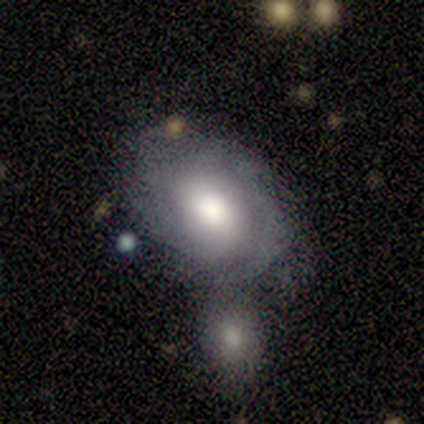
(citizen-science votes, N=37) smooth_or_featured: featured or disk (p=0.59) [alt: smooth p=0.41]
disk_edge_on: no (p=0.95) [alt: yes p=0.05]
bar: weak (p=0.52) [alt: no p=0.48]
has_spiral_arms: yes (p=0.76) [alt: no p=0.24]
spiral_winding: loose (p=0.44) [alt: medium p=0.31]
spiral_arm_count: can't tell (p=0.56) [alt: 1 p=0.31]
bulge_size: moderate (p=0.52) [alt: large p=0.33]
merging: merger (p=0.43) [alt: minor disturbance p=0.30]